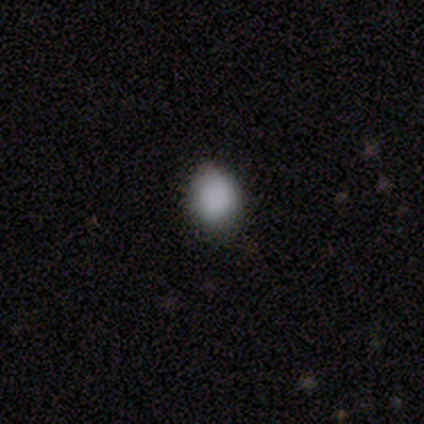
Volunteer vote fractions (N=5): smooth-or-featured: smooth: 80% | star or artifact: 20% | featured or disk: 0%
  how-rounded: round: 50% (tied) | in between: 50% (tied) | cigar-shaped: 0%
  merging: none: 75% | minor disturbance: 25% | major disturbance: 0% | merger: 0%